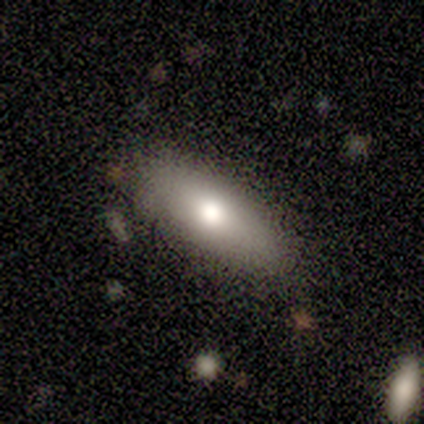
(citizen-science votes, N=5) Smooth or featured?
  - smooth: 60% *
  - featured or disk: 40%
  - star or artifact: 0%
How rounded?
  - in between: 100% *
  - round: 0%
  - cigar-shaped: 0%
Merging?
  - none: 100% *
  - minor disturbance: 0%
  - major disturbance: 0%
  - merger: 0%